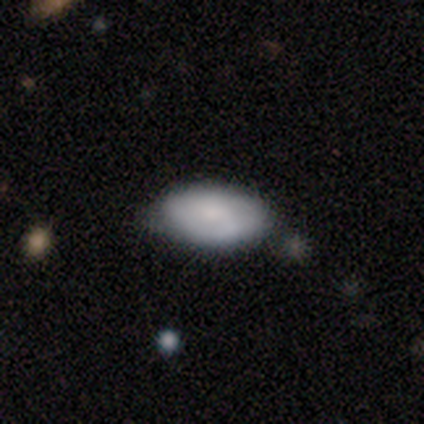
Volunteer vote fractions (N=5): Morphology: type=smooth (60%); roundness=in between (100%); merging=none (80%).